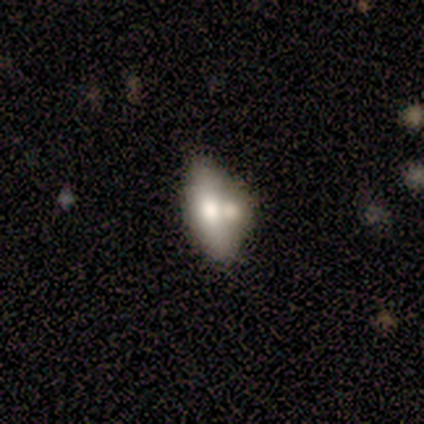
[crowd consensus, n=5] A smooth galaxy with no disk features (60%) that is in between round and cigar-shaped (100%).

Vote fractions:
- Smooth or featured? smooth: 60% / featured or disk: 20% / star or artifact: 20%
- How rounded? in between: 100% / round: 0% / cigar-shaped: 0%
- Merging? minor disturbance: 75% / merger: 25% / none: 0% / major disturbance: 0%